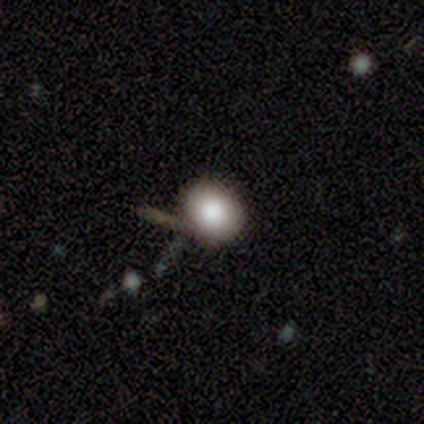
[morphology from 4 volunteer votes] Smooth or featured: smooth — 100%
How rounded: round — 75% (in between — 25%)
Merging: none — 50% (minor disturbance — 25%)